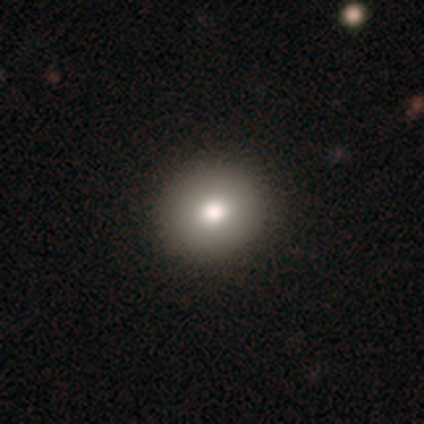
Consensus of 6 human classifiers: Overall: smooth (67%). How rounded: round (75%). Merging: none (100%).